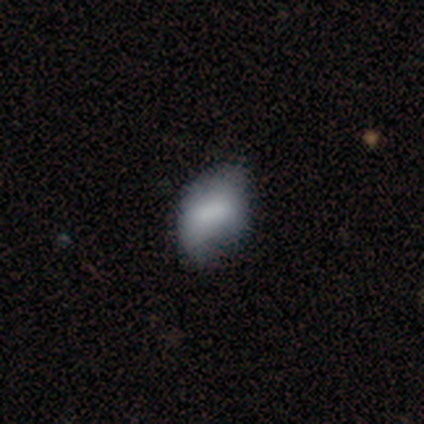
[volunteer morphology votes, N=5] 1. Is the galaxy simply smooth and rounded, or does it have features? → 80% smooth, 20% featured or disk, 0% star or artifact.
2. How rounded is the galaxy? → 100% in between, 0% round, 0% cigar-shaped.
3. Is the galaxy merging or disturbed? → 80% minor disturbance, 20% none, 0% major disturbance, 0% merger.